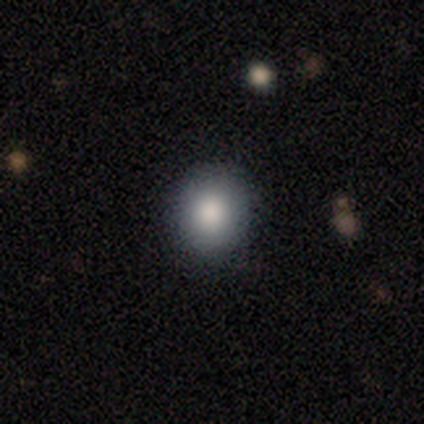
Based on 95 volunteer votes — smooth-or-featured: smooth: 88% | star or artifact: 7% | featured or disk: 4%
  how-rounded: round: 87% | in between: 13% | cigar-shaped: 0%
  merging: none: 92% | minor disturbance: 7% | major disturbance: 1% | merger: 0%